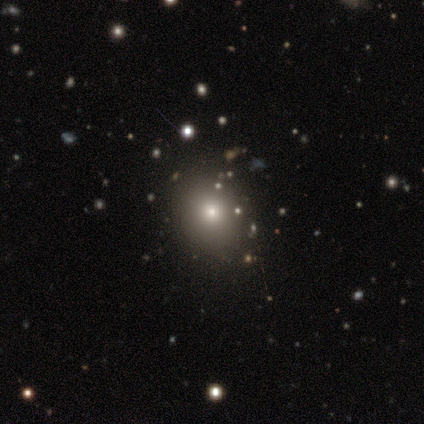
This is possibly a smooth galaxy (50%, tied with featured or disk). How rounded: possibly round (50%, tied with in between). Merging: possibly minor disturbance (50%).